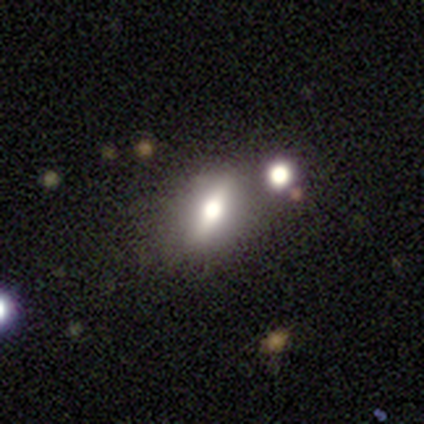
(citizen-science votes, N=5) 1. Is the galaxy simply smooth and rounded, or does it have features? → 80% featured or disk, 20% star or artifact, 0% smooth.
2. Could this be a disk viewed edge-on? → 50% yes (tied), 50% no (tied).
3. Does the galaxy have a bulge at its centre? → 100% rounded, 0% boxy, 0% none.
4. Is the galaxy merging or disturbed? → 100% none, 0% minor disturbance, 0% major disturbance, 0% merger.